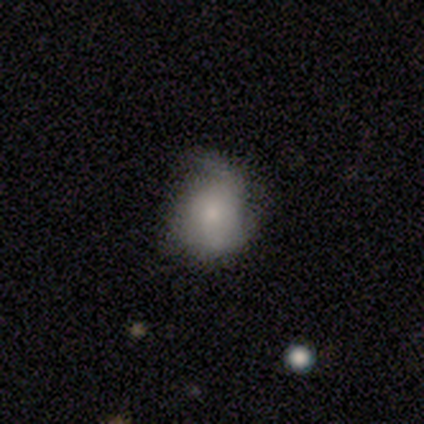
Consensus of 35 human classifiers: Smooth or featured? smooth (71%)
How rounded? round (76%)
Merging? none (48%)